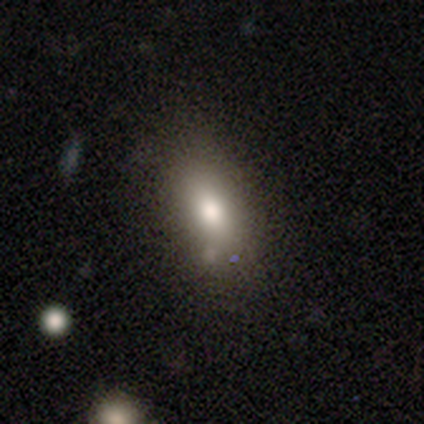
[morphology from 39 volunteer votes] Volunteers were most divided on "merging": none: 57%, minor disturbance: 23%, major disturbance: 11%, merger: 9%. More confident: how rounded — in between (92%); smooth or featured — smooth (67%).